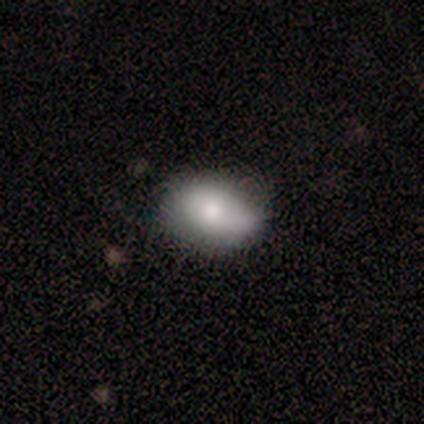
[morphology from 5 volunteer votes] This appears to be a smooth galaxy with no disk features (100%) that is in between round and cigar-shaped (100%). Merging: none (100%).